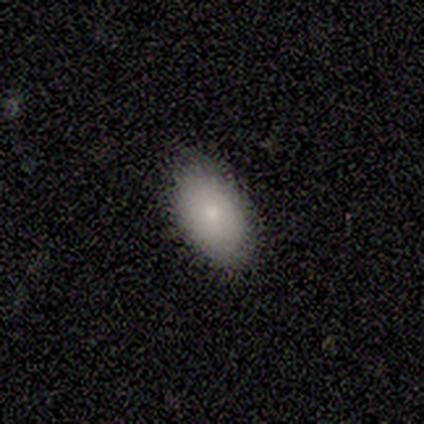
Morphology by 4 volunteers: This is clearly a smooth galaxy (100%). How rounded: clearly in between (100%). Merging: clearly none (100%).